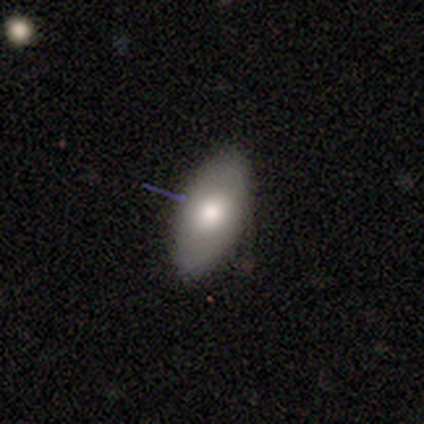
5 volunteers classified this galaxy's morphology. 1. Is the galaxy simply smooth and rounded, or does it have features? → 100% smooth, 0% featured or disk, 0% star or artifact.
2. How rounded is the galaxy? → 100% in between, 0% round, 0% cigar-shaped.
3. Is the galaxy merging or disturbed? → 100% none, 0% minor disturbance, 0% major disturbance, 0% merger.